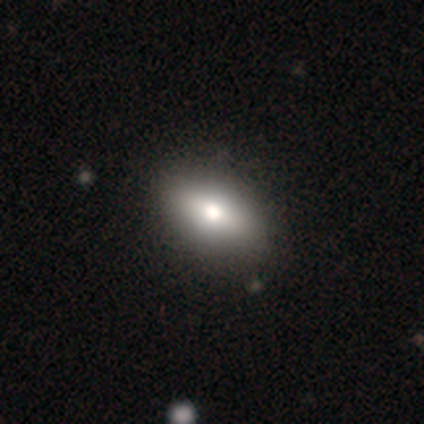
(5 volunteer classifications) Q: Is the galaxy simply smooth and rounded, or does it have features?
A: smooth — 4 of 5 (80%).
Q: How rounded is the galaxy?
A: in between — 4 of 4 (100%).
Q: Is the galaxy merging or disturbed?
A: none — 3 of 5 (60%).